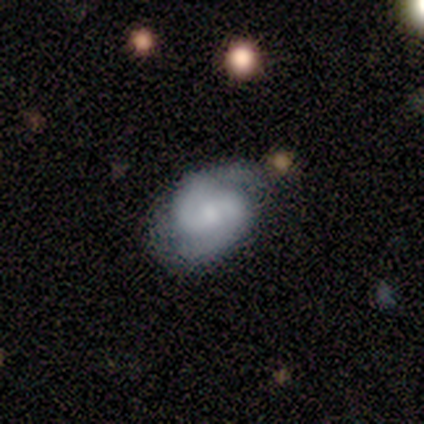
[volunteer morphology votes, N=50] Smooth or featured? 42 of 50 (84%) said featured or disk. Edge-on disk? 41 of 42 (98%) said no. Bar? 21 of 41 (51%) said no. Spiral arms? 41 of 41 (100%) said yes. Spiral winding? 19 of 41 (46%) said medium. Spiral arm count? 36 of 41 (88%) said 2. Bulge size? 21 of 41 (51%) said moderate. Merging? 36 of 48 (75%) said none.